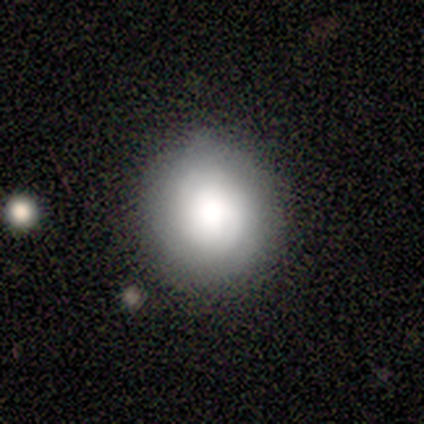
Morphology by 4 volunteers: Smooth or featured?
  - smooth: 50% * (tied)
  - featured or disk: 50% * (tied)
  - star or artifact: 0%
How rounded?
  - round: 100% *
  - in between: 0%
  - cigar-shaped: 0%
Merging?
  - none: 75% *
  - minor disturbance: 25%
  - major disturbance: 0%
  - merger: 0%